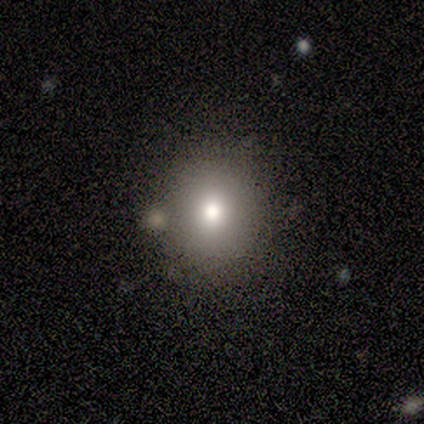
A smooth galaxy with no disk features (67%) that is round (100%). Merging: none (100%).